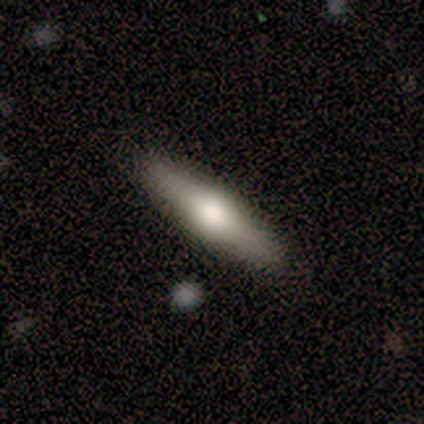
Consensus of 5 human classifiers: This appears to be a smooth galaxy with no disk features (60%) that is in between round and cigar-shaped (67%). Merging: none (100%).